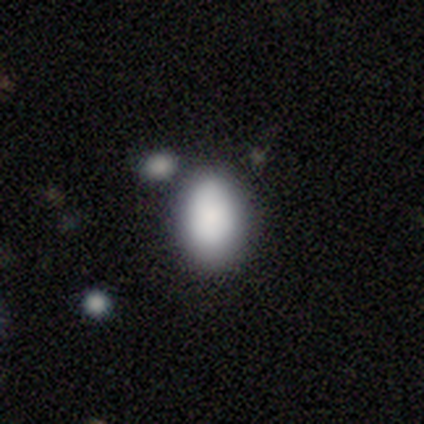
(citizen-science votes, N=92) smooth-or-featured: smooth: 83% | featured or disk: 9% | star or artifact: 9%
  how-rounded: in between: 91% | round: 9% | cigar-shaped: 0%
  merging: none: 61% | minor disturbance: 23% | merger: 14% | major disturbance: 2%